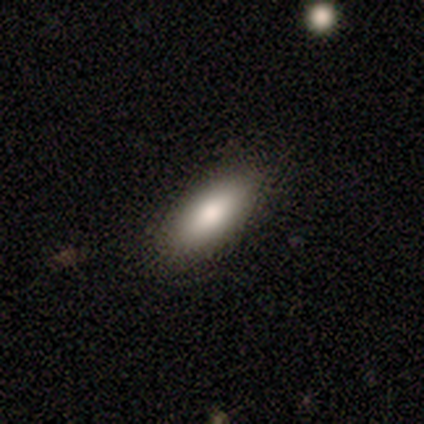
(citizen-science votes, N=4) Smooth or featured?
  - smooth: 100% *
  - featured or disk: 0%
  - star or artifact: 0%
How rounded?
  - cigar-shaped: 75% *
  - in between: 25%
  - round: 0%
Merging?
  - none: 75% *
  - minor disturbance: 25%
  - major disturbance: 0%
  - merger: 0%